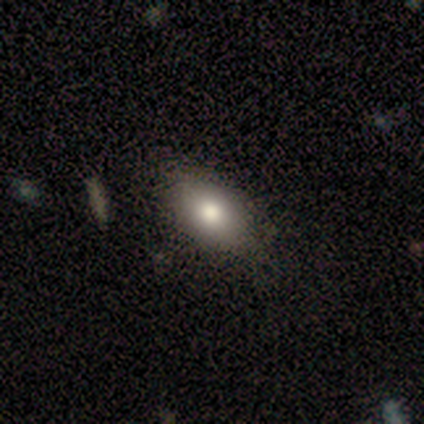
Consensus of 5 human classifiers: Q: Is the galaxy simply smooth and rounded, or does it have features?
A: smooth — 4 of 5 (80%).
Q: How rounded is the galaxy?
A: in between — 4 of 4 (100%).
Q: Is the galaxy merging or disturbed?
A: none — 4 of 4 (100%).